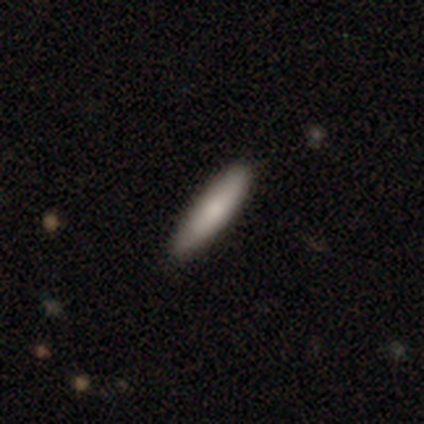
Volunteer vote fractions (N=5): Smooth or featured?
  - smooth: 80% *
  - star or artifact: 20%
  - featured or disk: 0%
How rounded?
  - cigar-shaped: 100% *
  - round: 0%
  - in between: 0%
Merging?
  - none: 100% *
  - minor disturbance: 0%
  - major disturbance: 0%
  - merger: 0%